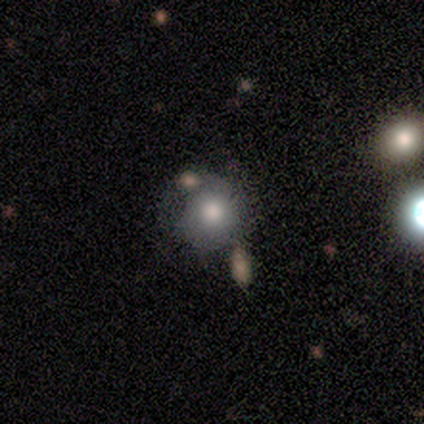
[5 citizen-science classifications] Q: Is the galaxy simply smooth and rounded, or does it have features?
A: featured or disk — 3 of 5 (60%).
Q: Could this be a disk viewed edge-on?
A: no — 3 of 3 (100%).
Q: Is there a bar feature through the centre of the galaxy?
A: no — 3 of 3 (100%).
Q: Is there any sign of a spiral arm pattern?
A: no — 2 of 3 (67%).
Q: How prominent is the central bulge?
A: moderate — 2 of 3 (67%).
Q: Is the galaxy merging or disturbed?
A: minor disturbance — 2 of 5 (40%).